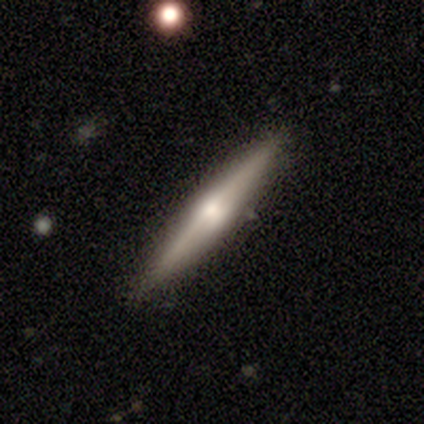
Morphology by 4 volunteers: This is likely a featured or disk galaxy (75%). It is clearly viewed edge-on (100%). Edge-on bulge: clearly rounded (100%). Merging: clearly none (100%).